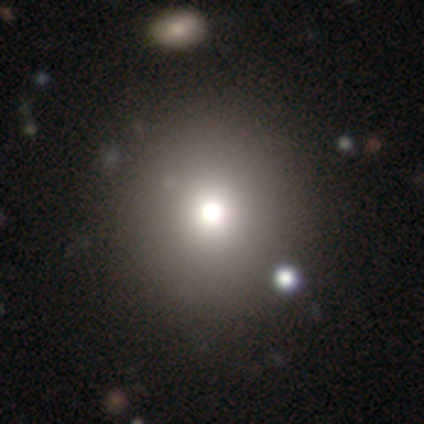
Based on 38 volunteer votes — smooth-or-featured: smooth: 74% | star or artifact: 21% | featured or disk: 5%
  how-rounded: round: 93% | in between: 7% | cigar-shaped: 0%
  merging: none: 63% | minor disturbance: 3% | merger: 3% | major disturbance: 0%